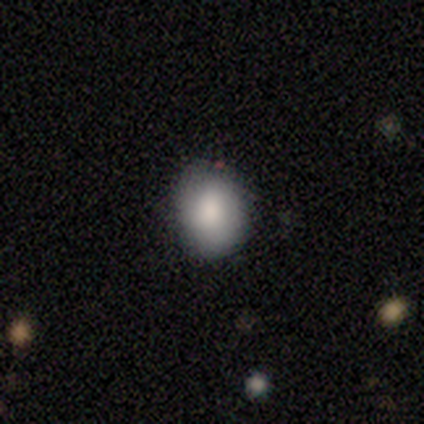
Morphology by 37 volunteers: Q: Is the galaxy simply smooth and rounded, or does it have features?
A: smooth — 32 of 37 (86%).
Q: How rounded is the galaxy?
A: round — 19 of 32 (59%).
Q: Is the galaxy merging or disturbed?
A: none — 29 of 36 (81%).